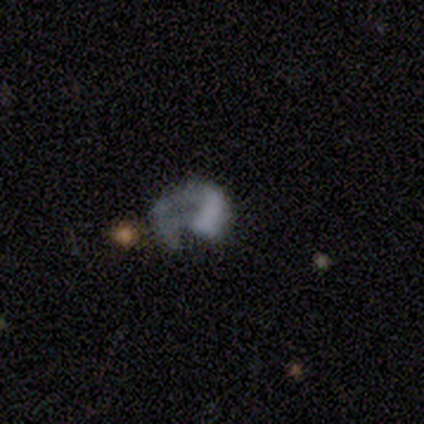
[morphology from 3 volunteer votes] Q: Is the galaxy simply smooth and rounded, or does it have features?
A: featured or disk — 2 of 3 (67%).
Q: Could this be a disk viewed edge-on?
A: no — 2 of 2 (100%).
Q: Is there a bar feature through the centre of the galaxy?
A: no — 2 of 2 (100%).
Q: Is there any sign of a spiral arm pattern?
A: no — 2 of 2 (100%).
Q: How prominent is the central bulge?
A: none — 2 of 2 (100%).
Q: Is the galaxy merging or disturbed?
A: none — 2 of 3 (67%).